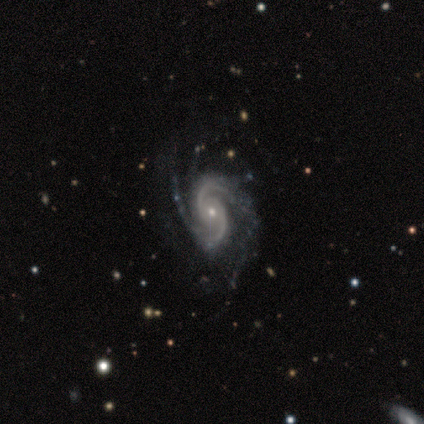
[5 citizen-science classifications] Smooth or featured: featured or disk — 100%
Edge-on disk: no — 100%
Bar: no — 60% (strong — 20%)
Spiral arms: yes — 100%
Spiral winding: medium — 60% (tight — 40%)
Spiral arm count: 2 — 80% (can't tell — 20%)
Bulge size: moderate — 60% (large — 20%)
Merging: none — 80% (major disturbance — 20%)